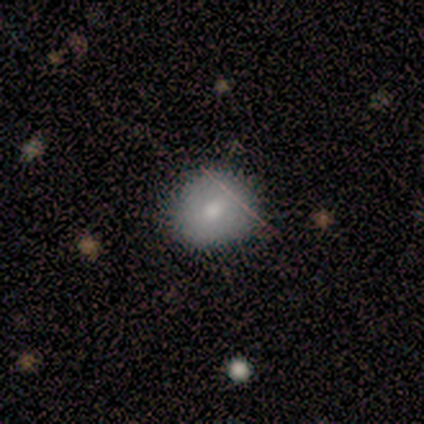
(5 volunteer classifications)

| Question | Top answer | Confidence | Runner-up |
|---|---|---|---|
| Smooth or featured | smooth | 80% | star or artifact (20%) |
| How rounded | round | 100% | — |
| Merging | none | 100% | — |